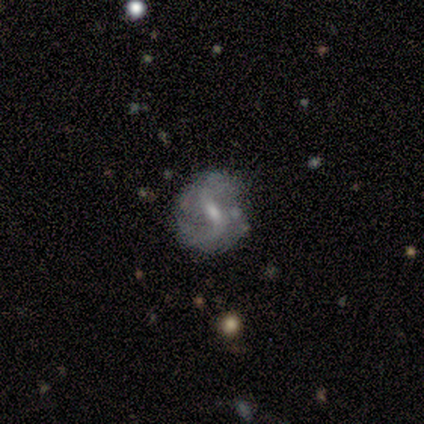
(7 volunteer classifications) A featured or disk galaxy (86%) with a strong bar (33%, tied with weak and no), 2 (100%) loose (75%) spiral arms (67%) and a moderate central bulge (67%).

Vote fractions:
- Smooth or featured? featured or disk: 86% / star or artifact: 14% / smooth: 0%
- Edge-on disk? no: 100% / yes: 0%
- Bar? strong: 33% (tied) / weak: 33% (tied) / no: 33% (tied)
- Spiral arms? yes: 67% / no: 33%
- Spiral winding? loose: 75% / medium: 25% / tight: 0%
- Spiral arm count? 2: 100% / 1: 0% / 3: 0% / 4: 0% / more than 4: 0% / can't tell: 0%
- Bulge size? moderate: 67% / small: 33% / dominant: 0% / large: 0% / none: 0%
- Merging? none: 83% / minor disturbance: 17% / major disturbance: 0% / merger: 0%